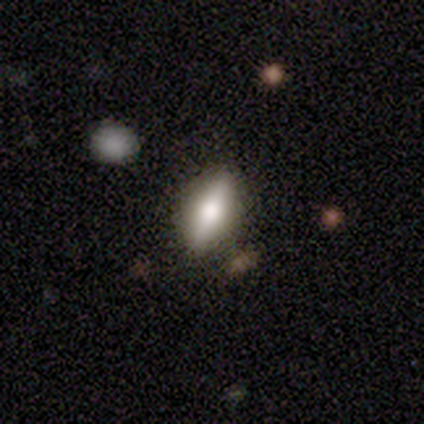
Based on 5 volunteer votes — A smooth galaxy with no disk features (60%) that is in between round and cigar-shaped (100%). Merging: none (80%).